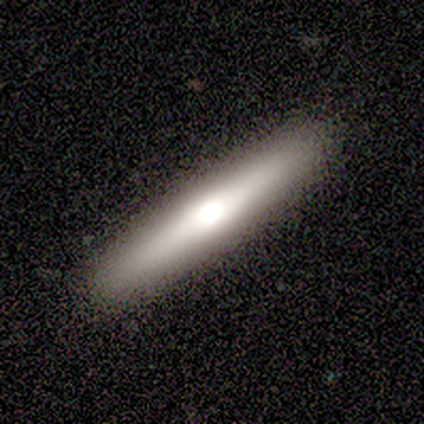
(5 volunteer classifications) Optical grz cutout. It shows a featured or disk galaxy (60%) viewed edge-on (67%) with no central bulge (50%, tied with rounded). Merging: none (80%).